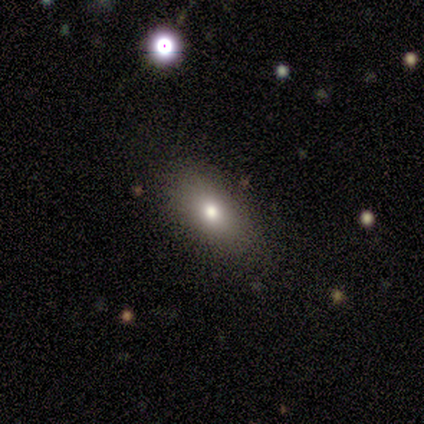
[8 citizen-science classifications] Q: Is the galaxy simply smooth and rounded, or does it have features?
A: smooth — 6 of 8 (75%).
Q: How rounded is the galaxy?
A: in between — 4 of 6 (67%).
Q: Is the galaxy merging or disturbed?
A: none — 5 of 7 (71%).